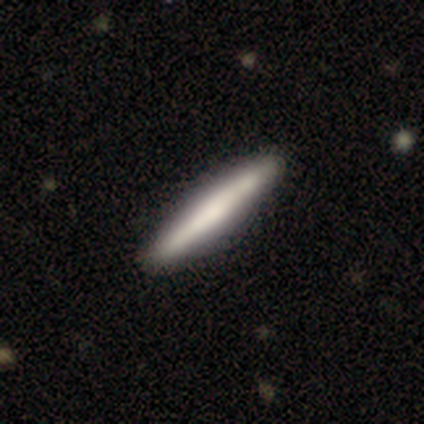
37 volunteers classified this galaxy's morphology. Smooth or featured? smooth (62%)
How rounded? cigar-shaped (100%)
Merging? none (47%)